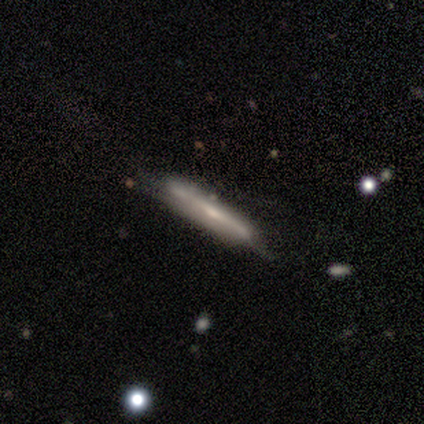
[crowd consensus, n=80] Smooth or featured? 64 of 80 (80%) said featured or disk. Edge-on disk? 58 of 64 (91%) said yes. Edge-on bulge? 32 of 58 (55%) said rounded. Merging? 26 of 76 (34%) said none.